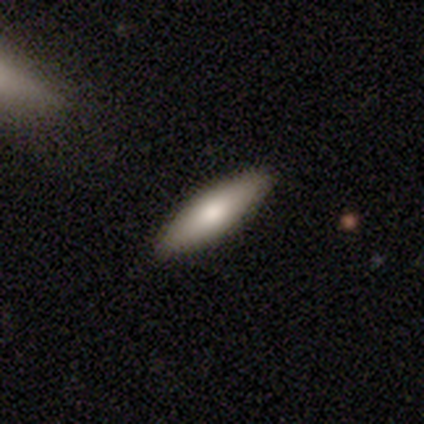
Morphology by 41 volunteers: A smooth galaxy with no disk features (76%) that is in between round and cigar-shaped (58%).

Vote fractions:
- Smooth or featured? smooth: 76% / featured or disk: 24% / star or artifact: 0%
- How rounded? in between: 58% / cigar-shaped: 42% / round: 0%
- Merging? none: 98% / minor disturbance: 2% / major disturbance: 0% / merger: 0%